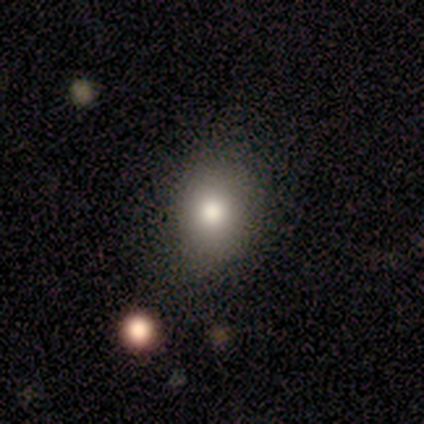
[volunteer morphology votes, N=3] Smooth or featured?
  - star or artifact: 67% *
  - smooth: 33%
  - featured or disk: 0%